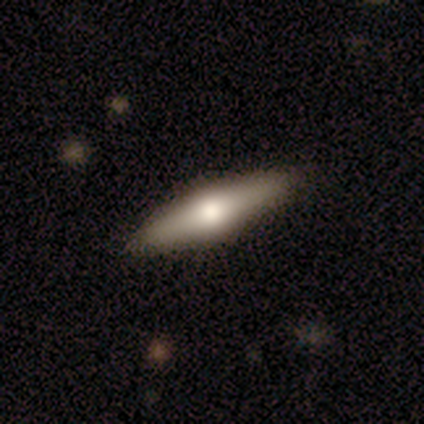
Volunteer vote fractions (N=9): Morphology: type=smooth (56%); roundness=cigar-shaped (80%); merging=none (67%).